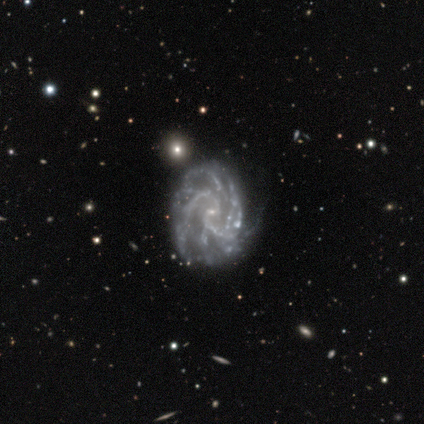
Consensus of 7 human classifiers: smooth-or-featured: featured or disk: 100% | smooth: 0% | star or artifact: 0%
  disk-edge-on: no: 100% | yes: 0%
    bar: no: 86% | weak: 14% | strong: 0%
    has-spiral-arms: yes: 100% | no: 0%
      spiral-winding: tight: 57% | medium: 29% | loose: 14%
      spiral-arm-count: 2: 43% | can't tell: 29% | 3: 14% | more than 4: 14% | 1: 0% | 4: 0%
    bulge-size: small: 100% | dominant: 0% | large: 0% | moderate: 0% | none: 0%
  merging: none: 43% (tied) | minor disturbance: 43% (tied) | major disturbance: 14% | merger: 0%